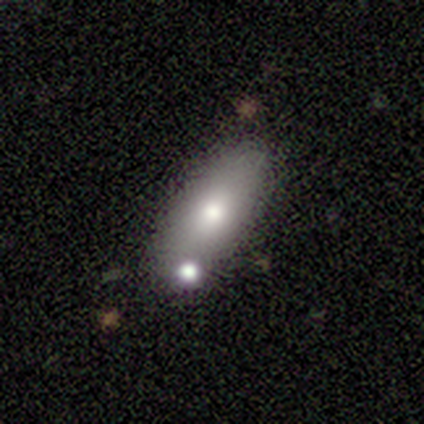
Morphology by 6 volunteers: Volunteers were most divided on "smooth or featured": smooth: 50%, featured or disk: 33%, star or artifact: 17%. More confident: how rounded — in between (67%); merging — merger (60%).